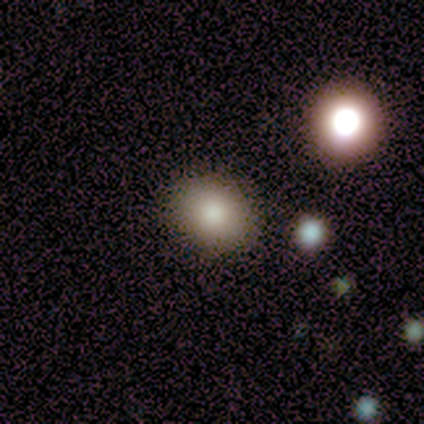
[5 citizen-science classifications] A smooth galaxy with no disk features (100%) that is round (80%).

Vote fractions:
- Smooth or featured? smooth: 100% / featured or disk: 0% / star or artifact: 0%
- How rounded? round: 80% / in between: 20% / cigar-shaped: 0%
- Merging? none: 80% / minor disturbance: 20% / major disturbance: 0% / merger: 0%